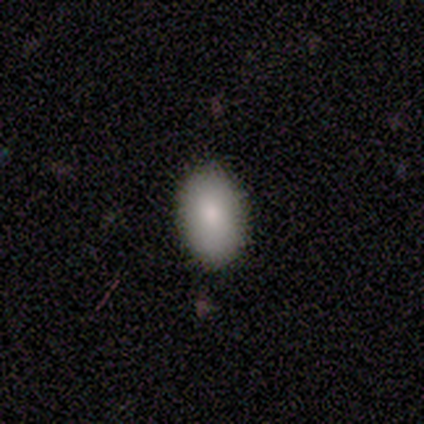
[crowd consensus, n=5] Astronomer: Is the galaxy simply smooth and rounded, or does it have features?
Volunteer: smooth — 80%.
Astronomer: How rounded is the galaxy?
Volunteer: in between — 75%.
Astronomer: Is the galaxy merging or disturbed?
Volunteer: none — 80%.